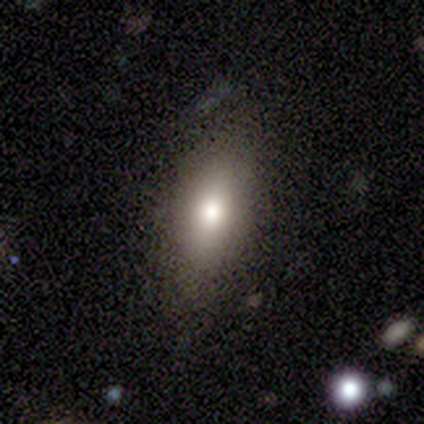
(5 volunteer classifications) Morphology: type=smooth (80%); roundness=round (50%, tied with in between); merging=none (100%).